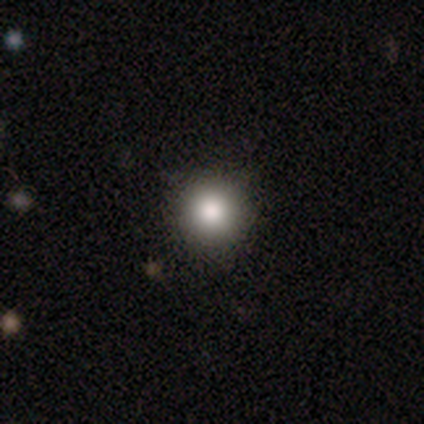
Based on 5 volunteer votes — Smooth or featured: smooth — 80% (featured or disk — 20%)
How rounded: round — 100%
Merging: none — 100%